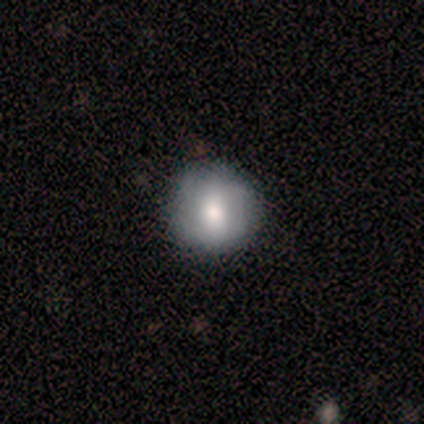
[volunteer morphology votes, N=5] Smooth or featured?
  - smooth: 60% *
  - featured or disk: 40%
  - star or artifact: 0%
How rounded?
  - round: 100% *
  - in between: 0%
  - cigar-shaped: 0%
Merging?
  - none: 60% *
  - minor disturbance: 40%
  - major disturbance: 0%
  - merger: 0%